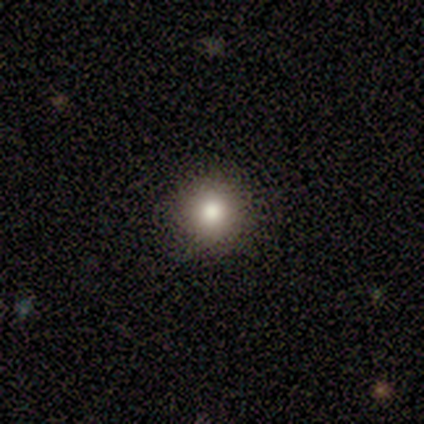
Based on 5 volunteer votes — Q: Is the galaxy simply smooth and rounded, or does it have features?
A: smooth — 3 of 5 (60%).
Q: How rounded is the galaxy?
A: round — 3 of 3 (100%).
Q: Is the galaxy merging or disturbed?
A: none — 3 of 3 (100%).